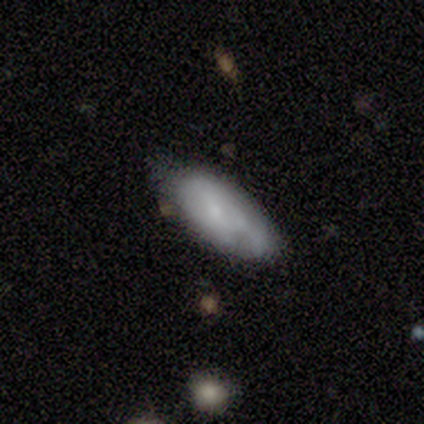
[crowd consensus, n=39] Q: Smooth or featured?
A: smooth (67%); runner-up: featured or disk (28%)
Q: How rounded?
A: in between (88%); runner-up: cigar-shaped (12%)
Q: Merging?
A: none (59%); runner-up: minor disturbance (30%)